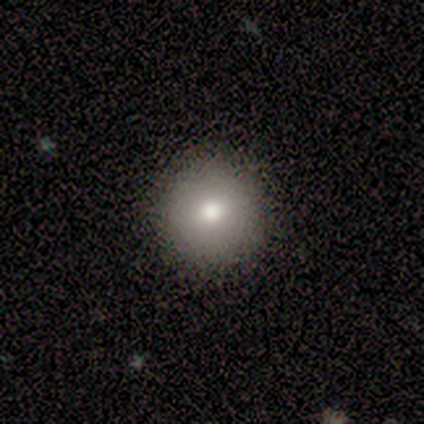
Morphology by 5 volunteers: Smooth or featured?
  - smooth: 100% *
  - featured or disk: 0%
  - star or artifact: 0%
How rounded?
  - round: 100% *
  - in between: 0%
  - cigar-shaped: 0%
Merging?
  - none: 100% *
  - minor disturbance: 0%
  - major disturbance: 0%
  - merger: 0%